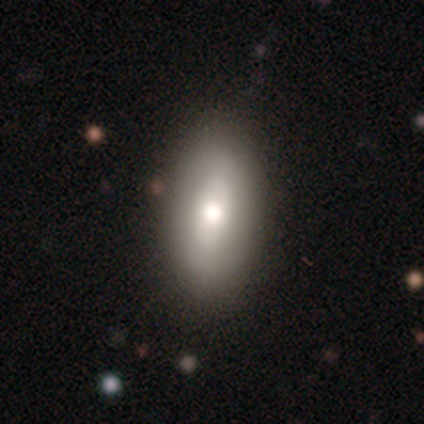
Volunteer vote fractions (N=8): This is clearly a smooth galaxy (88%). How rounded: likely in between (71%). Merging: clearly none (100%).